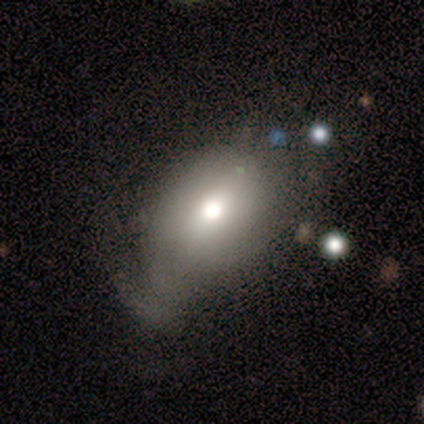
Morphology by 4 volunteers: This is likely a smooth galaxy (75%). How rounded: likely round (67%). Merging: likely minor disturbance (75%).